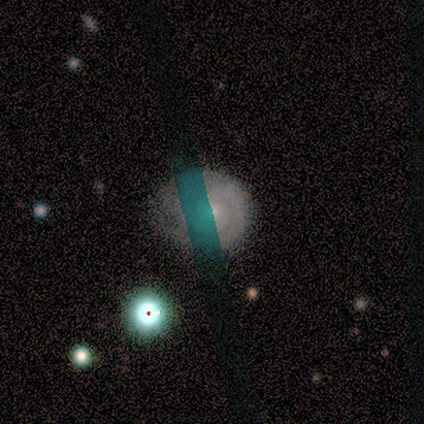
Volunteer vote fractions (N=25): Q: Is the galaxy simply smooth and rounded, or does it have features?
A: featured or disk — 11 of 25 (44%).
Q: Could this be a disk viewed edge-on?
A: no — 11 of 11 (100%).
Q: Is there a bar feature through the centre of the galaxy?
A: no — 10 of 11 (91%).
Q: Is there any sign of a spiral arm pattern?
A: yes — 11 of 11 (100%).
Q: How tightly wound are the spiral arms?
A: tight — 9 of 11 (82%).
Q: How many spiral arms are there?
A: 2 — 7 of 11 (64%).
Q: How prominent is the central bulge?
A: small — 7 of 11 (64%).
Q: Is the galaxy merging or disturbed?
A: none — 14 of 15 (93%).